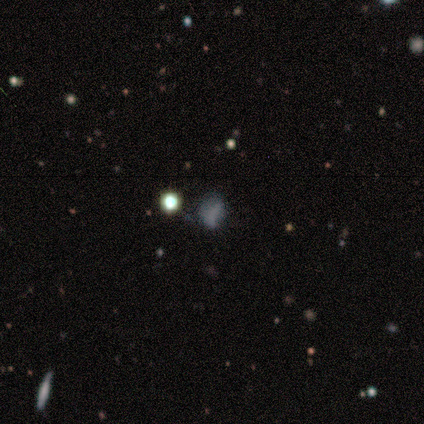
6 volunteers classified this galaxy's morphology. Smooth or featured? 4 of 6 (67%) said star or artifact.